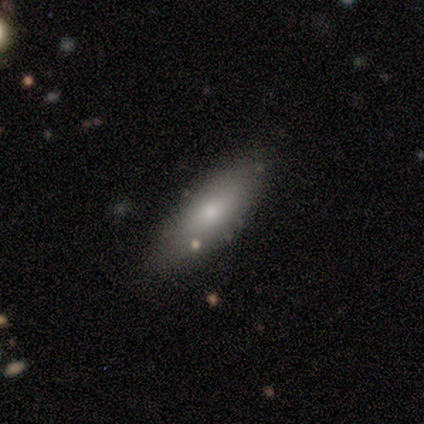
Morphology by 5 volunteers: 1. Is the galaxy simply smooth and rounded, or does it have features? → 80% smooth, 20% featured or disk, 0% star or artifact.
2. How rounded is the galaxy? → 75% in between, 25% cigar-shaped, 0% round.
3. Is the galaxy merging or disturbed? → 80% none, 20% minor disturbance, 0% major disturbance, 0% merger.